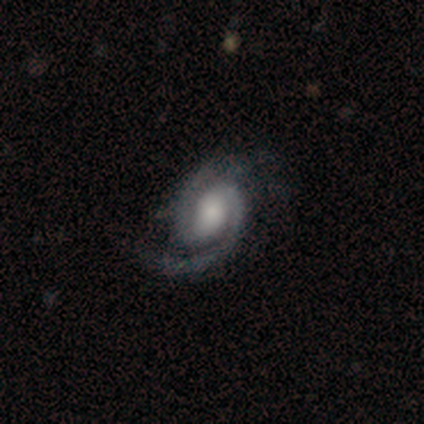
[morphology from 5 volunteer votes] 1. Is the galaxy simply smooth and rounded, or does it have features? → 100% featured or disk, 0% smooth, 0% star or artifact.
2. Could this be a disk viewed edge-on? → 100% no, 0% yes.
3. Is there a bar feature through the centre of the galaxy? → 40% weak (tied), 40% no (tied), 20% strong.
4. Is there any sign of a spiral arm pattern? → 100% yes, 0% no.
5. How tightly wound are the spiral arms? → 60% medium, 20% tight, 20% loose.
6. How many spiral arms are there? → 80% 2, 20% 1, 0% 3, 0% 4, 0% more than 4, 0% can't tell.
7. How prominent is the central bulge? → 40% large (tied), 40% small (tied), 20% moderate, 0% dominant, 0% none.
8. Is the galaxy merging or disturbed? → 40% none (tied), 40% major disturbance (tied), 20% minor disturbance, 0% merger.